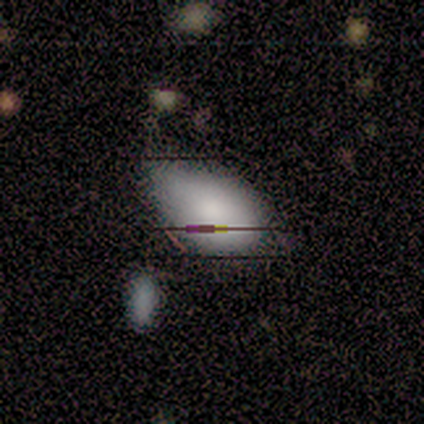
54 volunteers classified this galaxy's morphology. A smooth galaxy with no disk features (70%) that is in between round and cigar-shaped (97%). Merging: minor disturbance (52%).